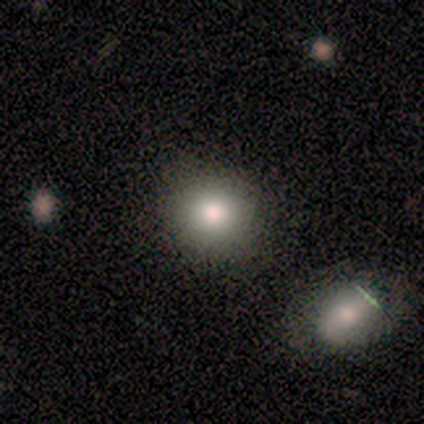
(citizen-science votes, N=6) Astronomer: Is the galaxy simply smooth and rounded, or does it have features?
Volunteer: smooth — 100%.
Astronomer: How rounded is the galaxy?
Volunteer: round — 67%.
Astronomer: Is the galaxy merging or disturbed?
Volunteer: none — 100%.